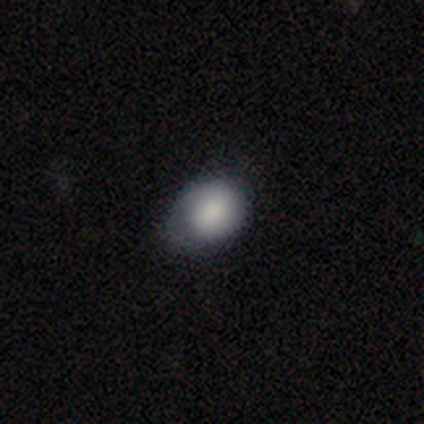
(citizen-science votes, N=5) smooth-or-featured: smooth: 80% | star or artifact: 20% | featured or disk: 0%
  how-rounded: round: 50% (tied) | in between: 50% (tied) | cigar-shaped: 0%
  merging: minor disturbance: 75% | none: 25% | major disturbance: 0% | merger: 0%